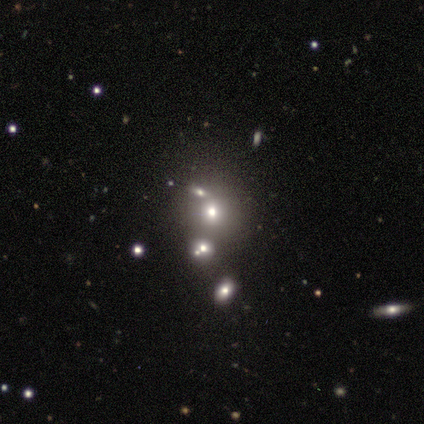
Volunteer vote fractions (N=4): Morphology: type=smooth (75%); roundness=round (100%); merging=none (67%).